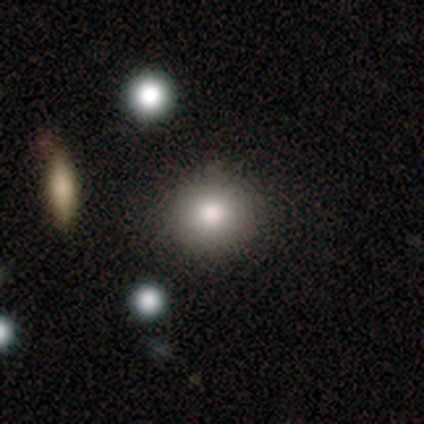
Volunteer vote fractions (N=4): smooth 75%, featured or disk 25%, star or artifact 0%. Down the decision tree: how rounded — round (67%); merging — none (75%).